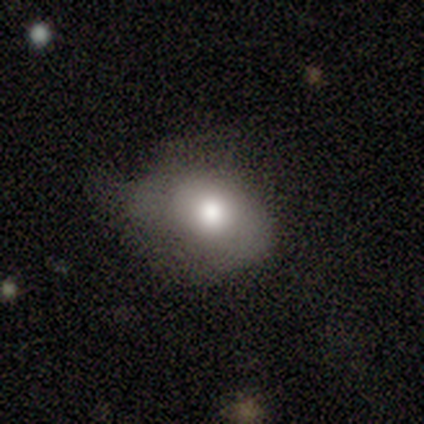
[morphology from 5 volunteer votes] This is clearly a smooth galaxy (100%). How rounded: clearly in between (80%). Merging: likely minor disturbance (60%).